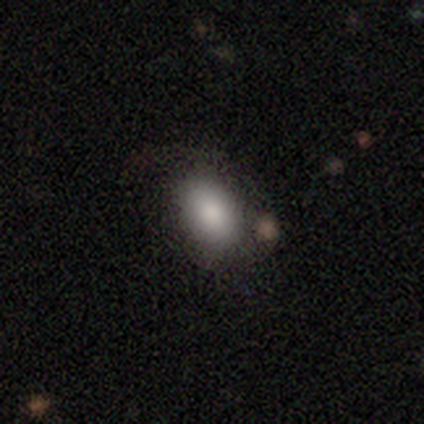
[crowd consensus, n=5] Volunteers were most divided on "smooth or featured": smooth: 60%, featured or disk: 20%, star or artifact: 20%. More confident: how rounded — in between (100%); merging — none (75%).